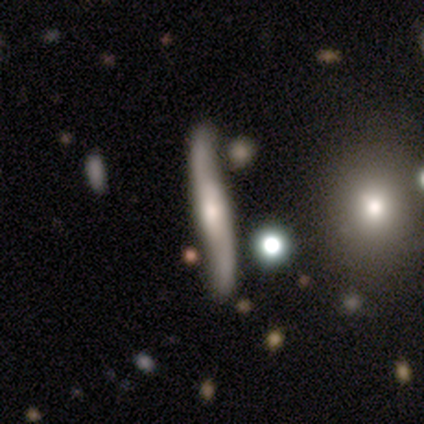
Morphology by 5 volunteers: A featured or disk galaxy (60%) viewed edge-on (100%) with a rounded central bulge (100%). Merging: none (75%).